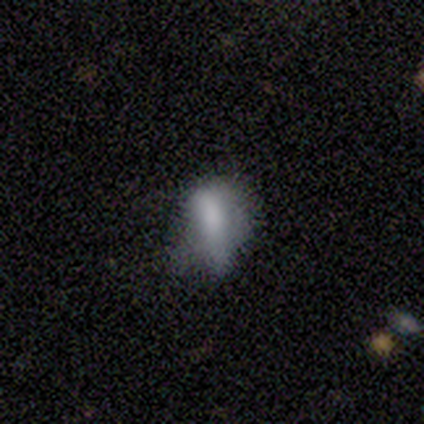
Volunteers were most divided on "merging": none: 60%, major disturbance: 40%, minor disturbance: 0%, merger: 0%. More confident: smooth or featured — smooth (80%); how rounded — in between (50%).